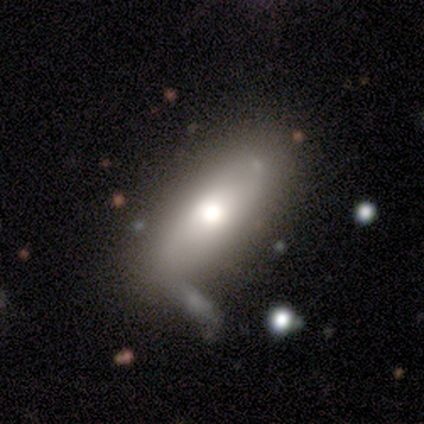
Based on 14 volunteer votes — Morphology: type=smooth (79%); roundness=in between (82%); merging=none (71%).